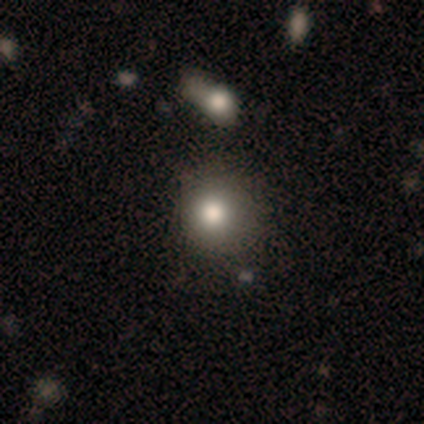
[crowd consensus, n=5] Q: Smooth or featured?
A: smooth (60%); runner-up: featured or disk (40%)
Q: How rounded?
A: round (100%)
Q: Merging?
A: none (80%); runner-up: minor disturbance (20%)